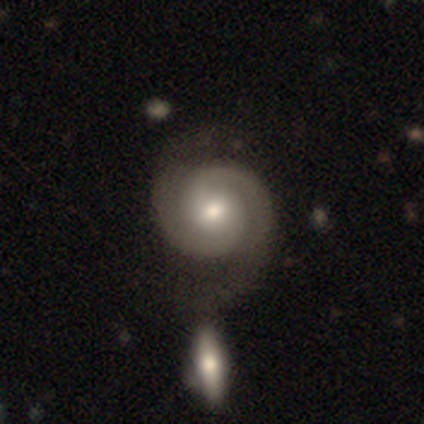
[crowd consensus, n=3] A featured or disk galaxy (100%) with no bar (67%), 2 (100%) tight (67%) spiral arms (100%) and a large central bulge (33%, tied with moderate and small). Merging: none (67%).